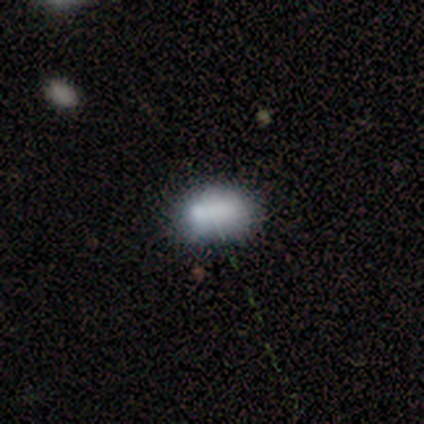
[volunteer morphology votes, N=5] Smooth or featured? smooth (80%)
How rounded? in between (100%)
Merging? minor disturbance (50%)